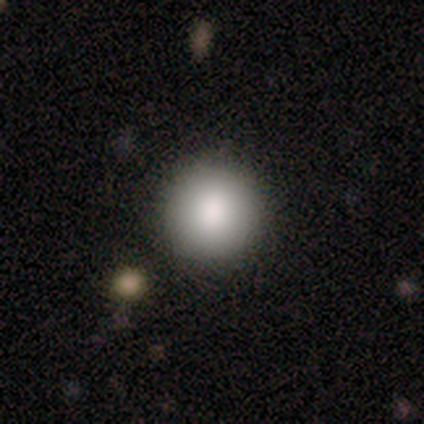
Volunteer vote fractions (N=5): Overall: smooth (100%). How rounded: round (100%). Merging: none (80%).